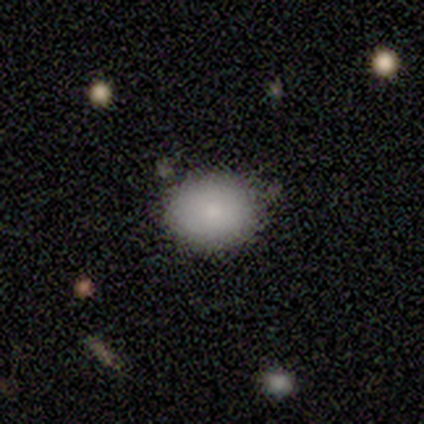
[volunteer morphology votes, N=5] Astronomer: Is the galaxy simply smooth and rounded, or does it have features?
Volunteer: smooth — 100%.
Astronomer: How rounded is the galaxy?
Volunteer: in between — 60% (runner-up: round, 40%).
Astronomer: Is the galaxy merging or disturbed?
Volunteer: none — 60% (runner-up: minor disturbance, 40%).